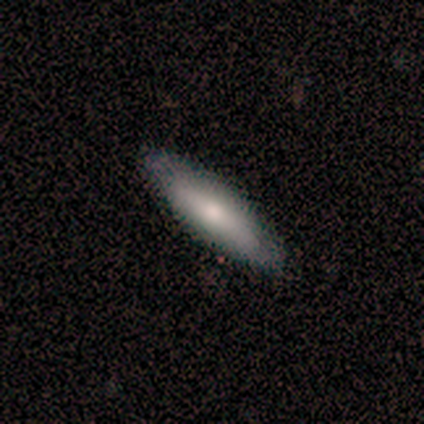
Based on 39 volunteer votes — smooth_or_featured: smooth (p=0.72) [alt: featured or disk p=0.23]
how_rounded: cigar-shaped (p=0.75) [alt: in between p=0.25]
merging: none (p=0.78) [alt: minor disturbance p=0.19]